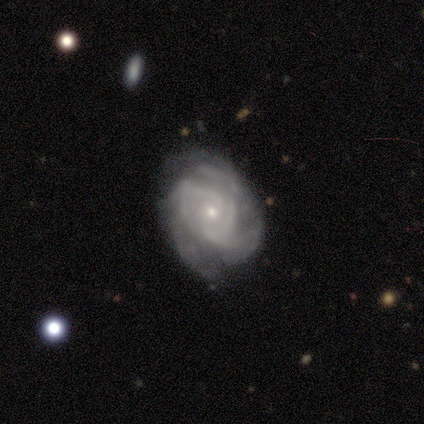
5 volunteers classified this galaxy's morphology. This appears to be a featured or disk galaxy (100%) with no bar (80%), tight (40%, tied with loose) spiral arms (100%) and a small central bulge (80%). Merging: none (40%, tied with major disturbance).